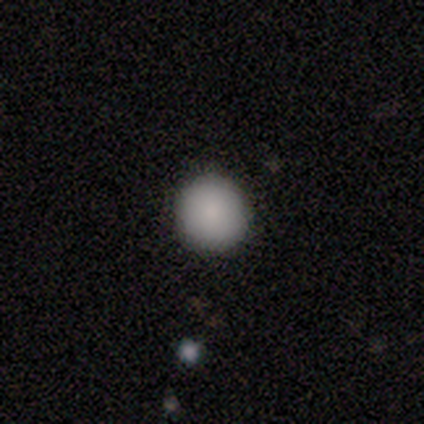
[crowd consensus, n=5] Overall: smooth (100%). How rounded: round (100%). Merging: none (100%).